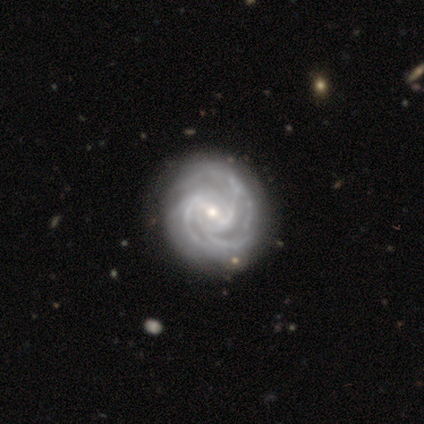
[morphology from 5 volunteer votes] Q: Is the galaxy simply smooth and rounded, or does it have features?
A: featured or disk — 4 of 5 (80%).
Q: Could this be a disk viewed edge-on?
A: no — 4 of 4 (100%).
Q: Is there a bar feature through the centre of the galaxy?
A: strong — 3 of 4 (75%).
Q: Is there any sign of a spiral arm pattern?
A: yes — 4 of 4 (100%).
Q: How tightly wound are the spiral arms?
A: tight — 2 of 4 (50%, tied with medium).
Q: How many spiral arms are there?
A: more than 4 — 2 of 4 (50%).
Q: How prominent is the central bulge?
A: small — 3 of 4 (75%).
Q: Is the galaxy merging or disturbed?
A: none — 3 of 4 (75%).